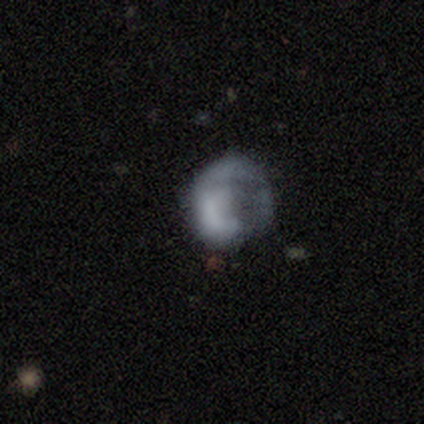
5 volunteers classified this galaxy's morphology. smooth-or-featured: featured or disk: 60% | smooth: 40% | star or artifact: 0%
  disk-edge-on: no: 100% | yes: 0%
    bar: no: 100% | strong: 0% | weak: 0%
    has-spiral-arms: no: 67% | yes: 33%
    bulge-size: dominant: 33% (tied) | large: 33% (tied) | none: 33% (tied) | moderate: 0% | small: 0%
  merging: none: 60% | major disturbance: 40% | minor disturbance: 0% | merger: 0%